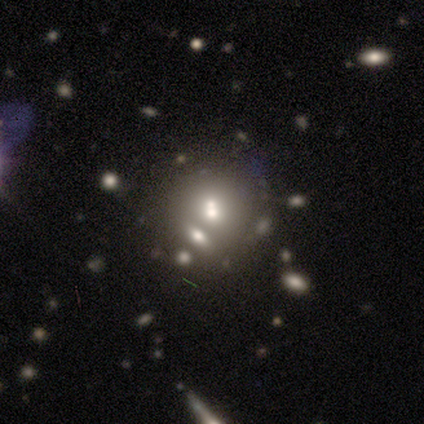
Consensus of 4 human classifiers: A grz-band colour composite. It shows a smooth galaxy with no disk features (50%, tied with featured or disk) that is round (50%, tied with in between). Merging: merger (50%).